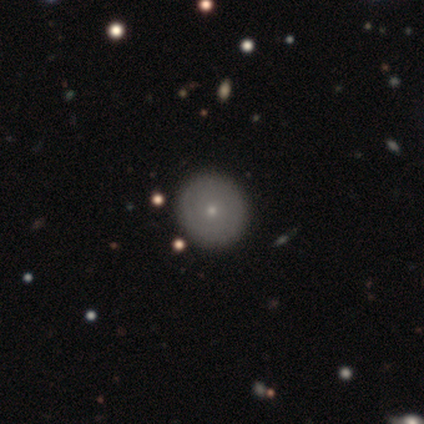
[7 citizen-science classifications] Smooth or featured: smooth — 57% (featured or disk — 43%)
How rounded: round — 75% (in between — 25%)
Merging: none — 71% (minor disturbance — 29%)